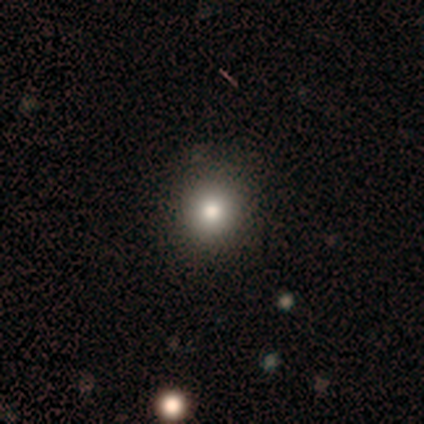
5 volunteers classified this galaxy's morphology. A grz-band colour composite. It shows a smooth galaxy with no disk features (80%) that is round (100%). Merging: none (100%).